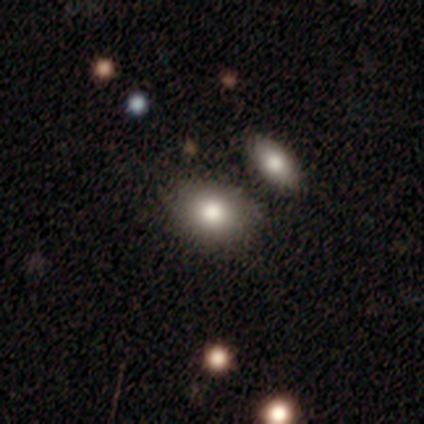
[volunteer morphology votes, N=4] Overall: smooth (50%; featured or disk 25%). How rounded: round (100%). Merging: none (100%).